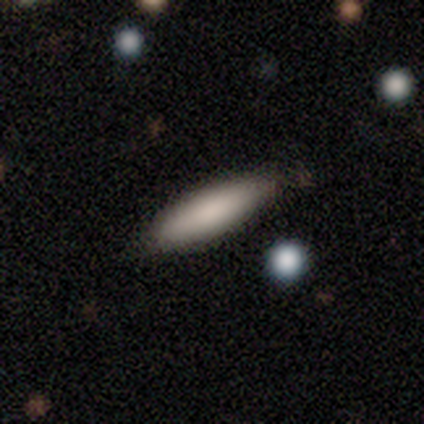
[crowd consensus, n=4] Smooth or featured? 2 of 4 (50%) said featured or disk. Edge-on disk? 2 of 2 (100%) said yes. Edge-on bulge? 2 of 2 (100%) said rounded. Merging? 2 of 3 (67%) said none.